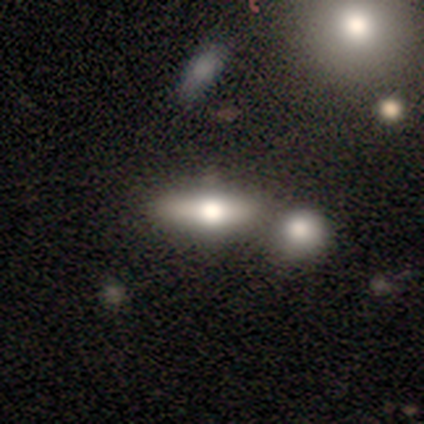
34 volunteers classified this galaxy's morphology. Overall: smooth (71%). How rounded: in between (62%; cigar-shaped 38%). Merging: merger (65%).